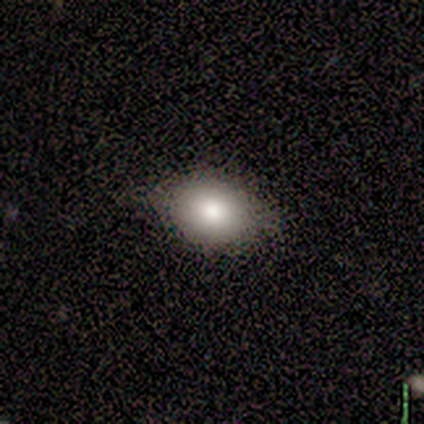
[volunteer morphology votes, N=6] Volunteers were most divided on "merging": none: 67%, minor disturbance: 33%, major disturbance: 0%, merger: 0%. More confident: how rounded — in between (100%); smooth or featured — smooth (83%).